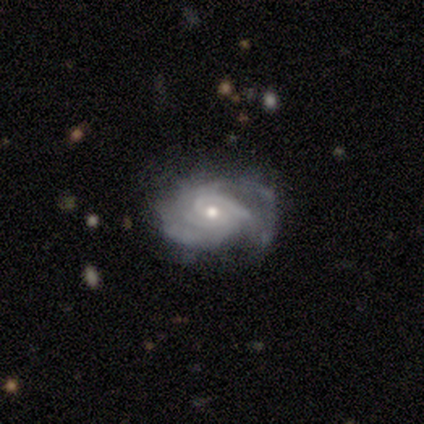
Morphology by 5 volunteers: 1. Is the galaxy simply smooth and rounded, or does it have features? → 80% featured or disk, 20% star or artifact, 0% smooth.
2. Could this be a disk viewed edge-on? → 100% no, 0% yes.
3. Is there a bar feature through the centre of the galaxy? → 75% weak, 25% no, 0% strong.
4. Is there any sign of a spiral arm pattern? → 100% yes, 0% no.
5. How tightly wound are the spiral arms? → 75% tight, 25% medium, 0% loose.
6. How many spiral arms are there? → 50% can't tell, 25% 2, 25% 4, 0% 1, 0% 3, 0% more than 4.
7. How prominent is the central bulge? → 100% small, 0% dominant, 0% large, 0% moderate, 0% none.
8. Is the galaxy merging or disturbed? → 75% none, 25% minor disturbance, 0% major disturbance, 0% merger.